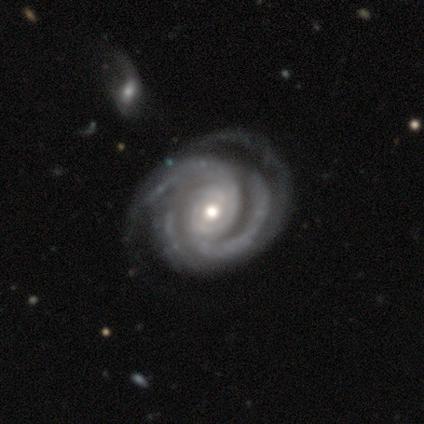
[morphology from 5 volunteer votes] A featured or disk galaxy (100%) with no bar (60%), 2 (40%, tied with 3) tight (80%) spiral arms (100%) and a moderate central bulge (80%). Merging: minor disturbance (60%).